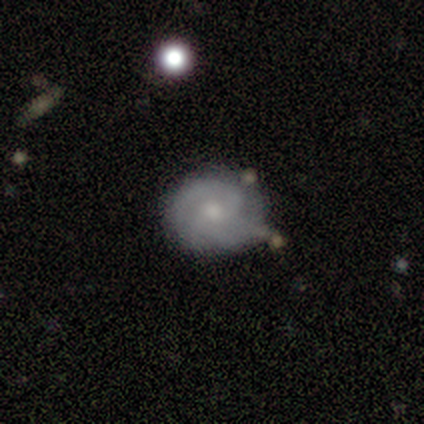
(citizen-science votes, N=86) Morphology: type=featured or disk (63%); edge-on=no (96%); bar=no (75%); spiral arms=yes (88%); winding=tight (57%); arm count=2 (41%); bulge=small (52%); merging=none (57%).